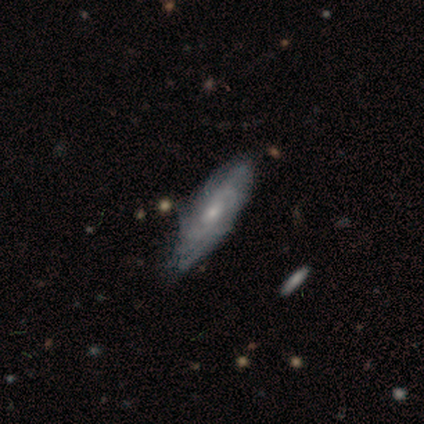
smooth_or_featured: featured or disk (p=0.80) [alt: smooth p=0.20]
disk_edge_on: no (p=1.00)
bar: weak (p=0.50) [tied with: no p=0.50]
has_spiral_arms: yes (p=0.75) [alt: no p=0.25]
spiral_winding: tight (p=0.67) [alt: medium p=0.33]
spiral_arm_count: can't tell (p=0.67) [alt: more than 4 p=0.33]
bulge_size: small (p=0.75) [alt: moderate p=0.25]
merging: none (p=0.60) [alt: minor disturbance p=0.40]